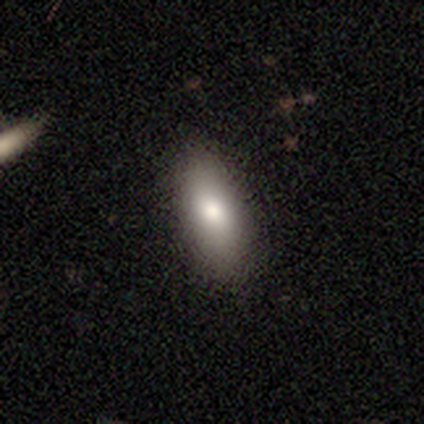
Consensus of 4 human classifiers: This appears to be a smooth galaxy with no disk features (75%) that is cigar-shaped (67%). Merging: none (75%).